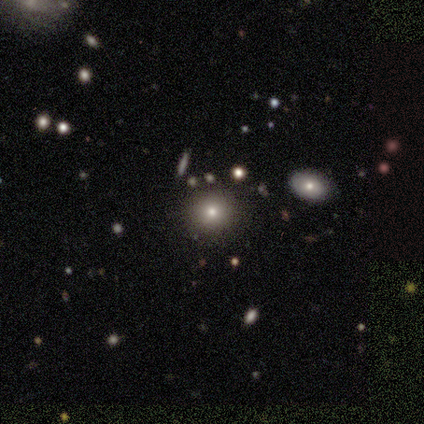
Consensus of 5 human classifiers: Smooth or featured: smooth — 80% (star or artifact — 20%)
How rounded: round — 100%
Merging: none — 100%